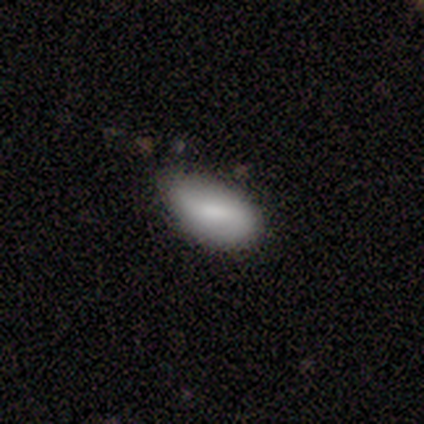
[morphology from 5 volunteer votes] smooth_or_featured: smooth (p=0.60) [alt: featured or disk p=0.40]
how_rounded: in between (p=1.00)
merging: none (p=1.00)